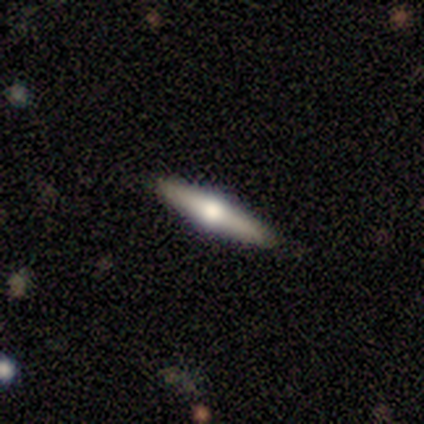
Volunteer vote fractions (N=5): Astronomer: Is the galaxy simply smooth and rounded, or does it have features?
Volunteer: featured or disk — 80%.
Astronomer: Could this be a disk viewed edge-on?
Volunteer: yes — 100%.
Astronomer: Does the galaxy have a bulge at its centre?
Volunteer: rounded — 100%.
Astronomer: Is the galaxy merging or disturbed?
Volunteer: none — 100%.